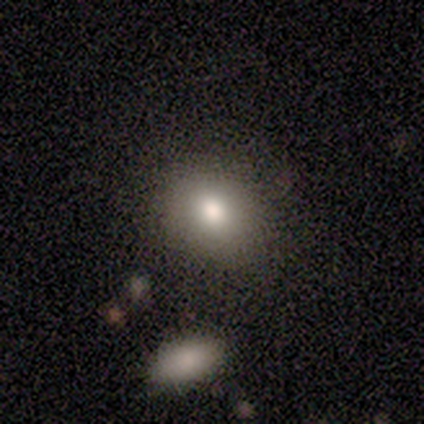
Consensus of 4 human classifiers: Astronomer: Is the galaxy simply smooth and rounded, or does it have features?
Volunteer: smooth — 50%, tied with featured or disk at 50%.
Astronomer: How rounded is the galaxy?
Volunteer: round — 50%, tied with in between at 50%.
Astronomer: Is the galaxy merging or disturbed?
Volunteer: none — 75%.